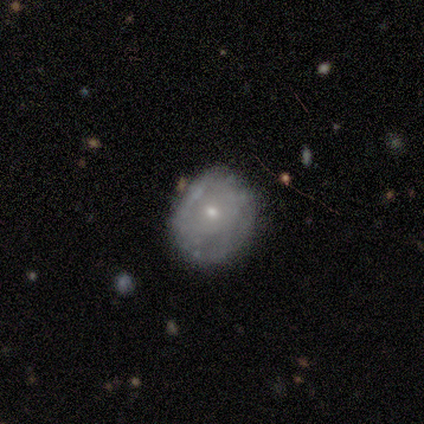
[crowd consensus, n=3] This appears to be a featured or disk galaxy (67%) with a strong bar (50%, tied with no), no spiral arms (100%) and a small central bulge (100%). Merging: none (67%).